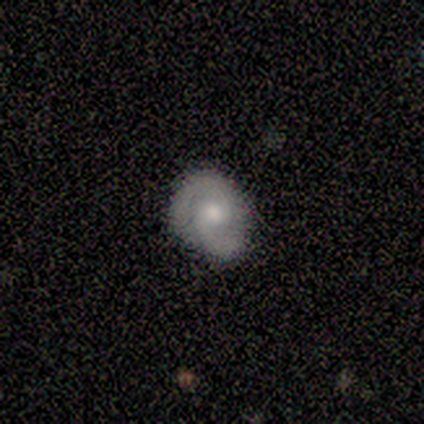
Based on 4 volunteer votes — Smooth or featured? featured or disk (75%)
Edge-on disk? no (100%)
Bar? no (67%)
Spiral arms? yes (100%)
Spiral winding? tight (100%)
Spiral arm count? 2 (100%)
Bulge size? moderate (100%)
Merging? none (75%)